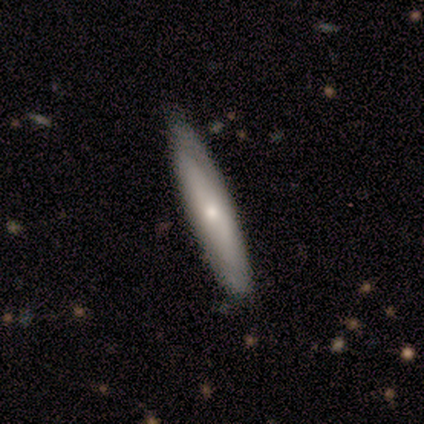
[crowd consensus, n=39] A smooth galaxy with no disk features (49%, tied with featured or disk) that is cigar-shaped (89%). Merging: none (89%).